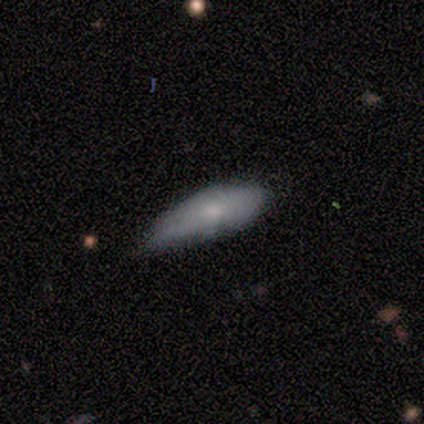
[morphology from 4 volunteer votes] This appears to be a smooth galaxy with no disk features (100%) that is in between round and cigar-shaped (75%). Merging: minor disturbance (75%).